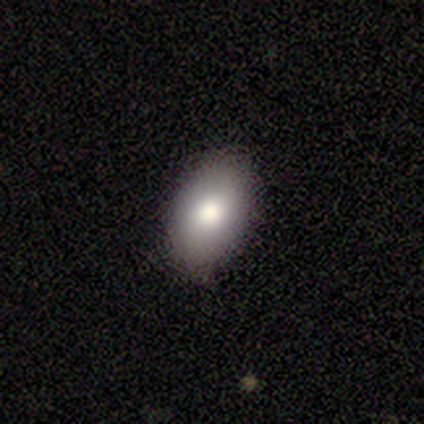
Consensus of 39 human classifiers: This is likely a smooth galaxy (69%). How rounded: clearly in between (81%). Merging: clearly none (89%).